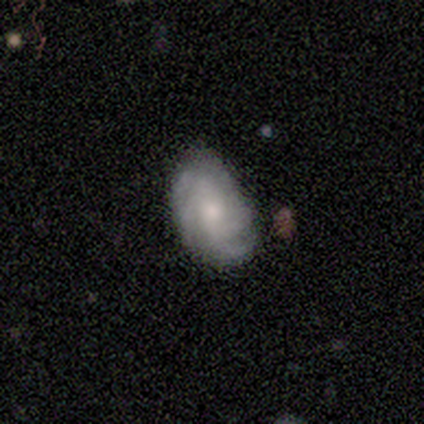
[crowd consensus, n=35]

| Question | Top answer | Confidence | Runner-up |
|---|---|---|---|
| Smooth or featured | featured or disk | 66% | smooth (29%) |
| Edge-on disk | no | 100% | — |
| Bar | no | 65% | weak (26%) |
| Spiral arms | yes | 96% | no (4%) |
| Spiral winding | medium | 55% | tight (36%) |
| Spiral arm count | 4 | 41% | can't tell (27%) |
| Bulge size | small | 57% | moderate (30%) |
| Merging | none | 67% | minor disturbance (27%) |